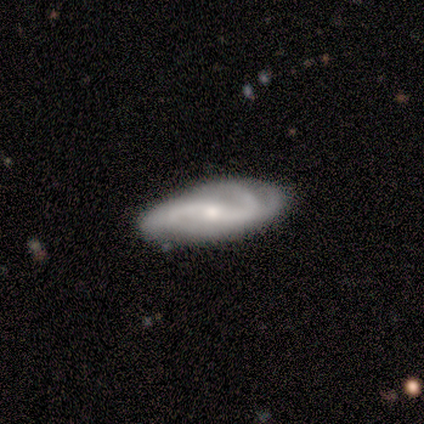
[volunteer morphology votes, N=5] Volunteers were most divided on "spiral winding" (2-way tie): tight: 40%, medium: 40%, loose: 20%. Remaining: smooth or featured — featured or disk (100%); edge-on disk — no (100%); spiral arms — yes (100%); bulge size — small (100%); bar — weak (80%); merging — none (80%); spiral arm count — 2 (40%).